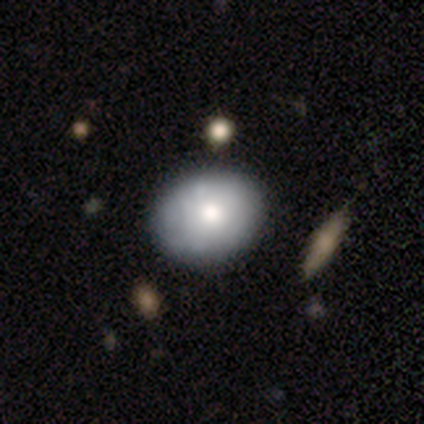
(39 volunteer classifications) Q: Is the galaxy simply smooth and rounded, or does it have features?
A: smooth — 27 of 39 (69%).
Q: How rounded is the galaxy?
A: round — 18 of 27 (67%).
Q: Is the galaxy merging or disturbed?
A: none — 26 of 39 (67%).